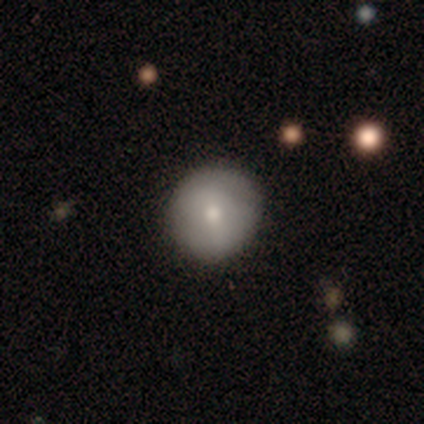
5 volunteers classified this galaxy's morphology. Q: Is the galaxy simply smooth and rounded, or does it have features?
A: smooth — 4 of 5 (80%).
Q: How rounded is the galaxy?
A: round — 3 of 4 (75%).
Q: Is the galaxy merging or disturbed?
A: none — 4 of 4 (100%).